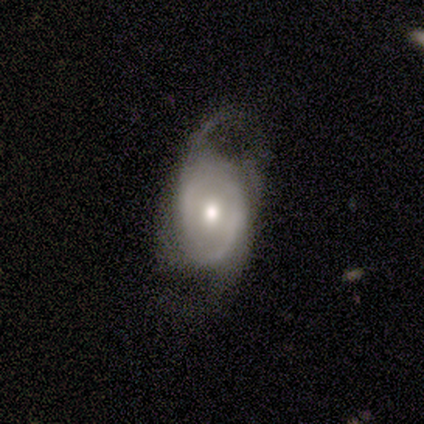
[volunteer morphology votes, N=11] Q: Smooth or featured?
A: featured or disk (73%); runner-up: smooth (27%)
Q: Edge-on disk?
A: no (100%)
Q: Bar?
A: no (88%); runner-up: weak (12%)
Q: Spiral arms?
A: yes (62%); runner-up: no (38%)
Q: Spiral winding?
A: loose (80%); runner-up: tight (20%)
Q: Spiral arm count?
A: 2 (80%); runner-up: can't tell (20%)
Q: Bulge size?
A: moderate (88%); runner-up: small (12%)
Q: Merging?
A: minor disturbance (45%); tied with: major disturbance (45%)